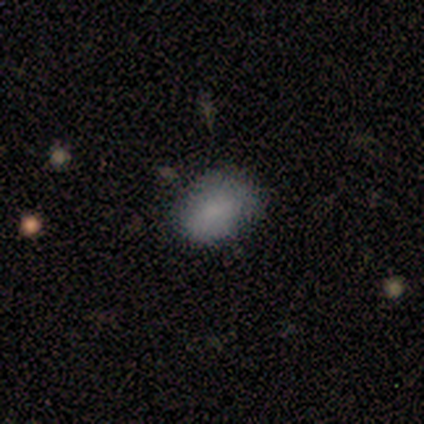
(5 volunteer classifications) A smooth galaxy with no disk features (80%) that is in between round and cigar-shaped (75%). Merging: none (50%, tied with minor disturbance).